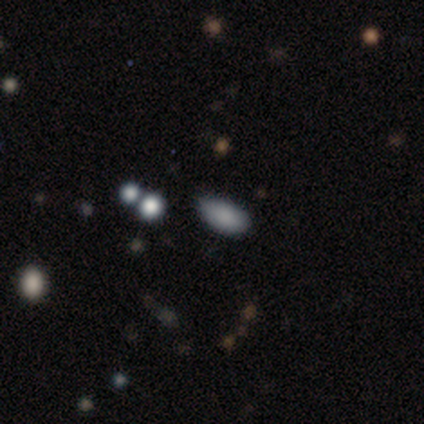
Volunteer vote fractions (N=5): Q: Smooth or featured?
A: smooth (100%)
Q: How rounded?
A: in between (100%)
Q: Merging?
A: none (60%); runner-up: minor disturbance (40%)